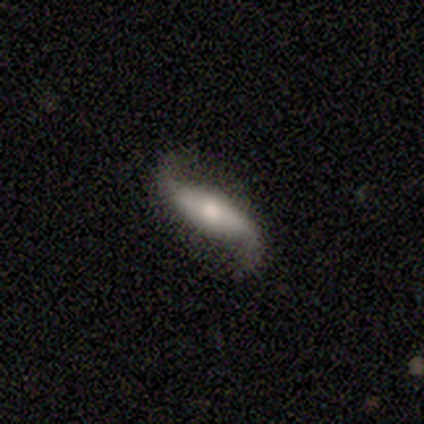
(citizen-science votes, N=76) Smooth or featured? featured or disk (78%)
Edge-on disk? no (95%)
Bar? strong (52%)
Spiral arms? yes (95%)
Spiral winding? loose (91%)
Spiral arm count? 2 (94%)
Bulge size? moderate (57%)
Merging? none (75%)